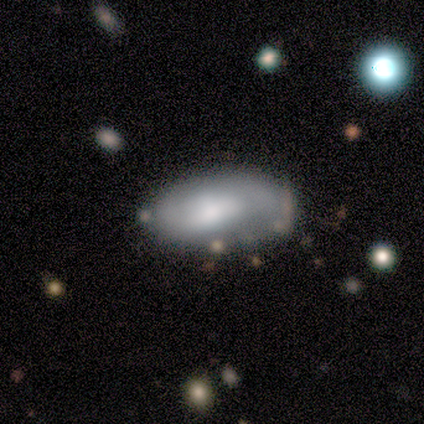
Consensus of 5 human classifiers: A smooth galaxy with no disk features (60%) that is in between round and cigar-shaped (100%).

Vote fractions:
- Smooth or featured? smooth: 60% / featured or disk: 40% / star or artifact: 0%
- How rounded? in between: 100% / round: 0% / cigar-shaped: 0%
- Merging? none: 80% / merger: 20% / minor disturbance: 0% / major disturbance: 0%